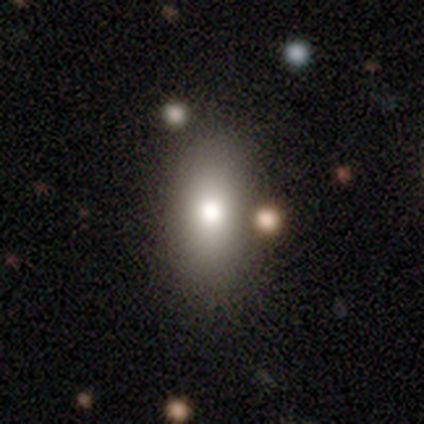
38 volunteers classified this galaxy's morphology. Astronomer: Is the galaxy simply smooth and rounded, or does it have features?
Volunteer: smooth — 84%.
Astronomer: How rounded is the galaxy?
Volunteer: in between — 94%.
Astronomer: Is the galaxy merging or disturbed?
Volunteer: none — 53%.